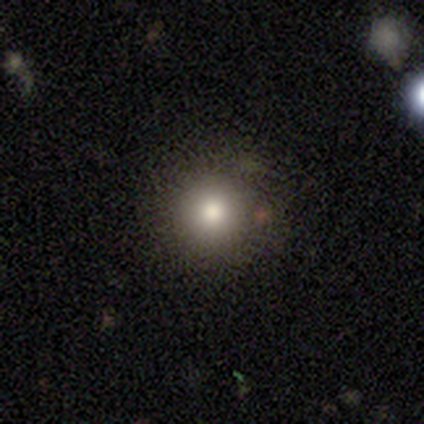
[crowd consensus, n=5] Smooth or featured?
  - smooth: 80% *
  - star or artifact: 20%
  - featured or disk: 0%
How rounded?
  - round: 100% *
  - in between: 0%
  - cigar-shaped: 0%
Merging?
  - none: 100% *
  - minor disturbance: 0%
  - major disturbance: 0%
  - merger: 0%